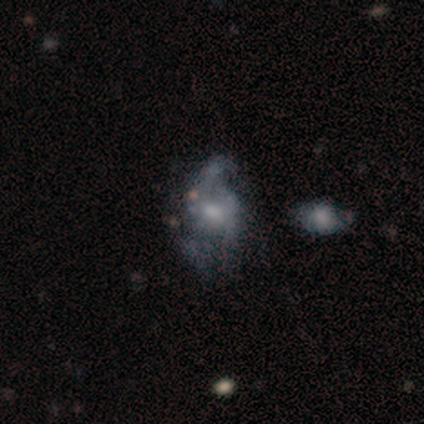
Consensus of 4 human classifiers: A featured or disk galaxy (100%) with no bar (75%), 2 (50%, tied with can't tell) medium (50%, tied with loose) spiral arms (50%, tied with no) and a small central bulge (50%, tied with none). Merging: merger (50%).